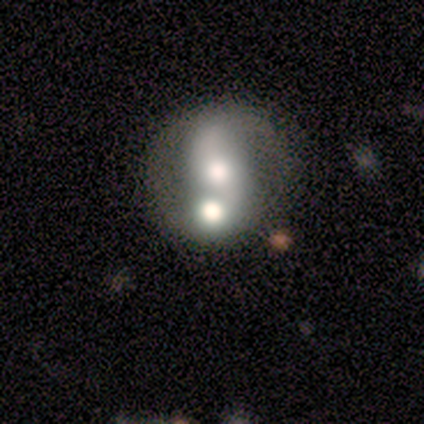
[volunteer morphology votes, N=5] type=smooth (60%); roundness=round (100%); merging=merger (60%).